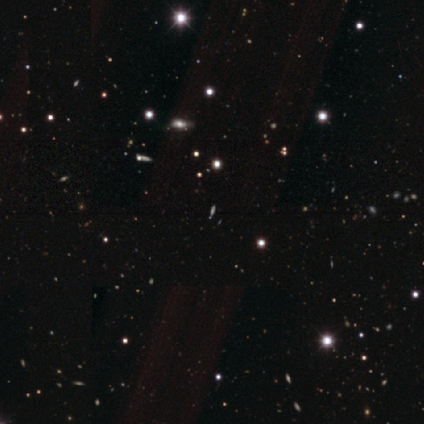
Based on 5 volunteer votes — smooth-or-featured: star or artifact: 80% | featured or disk: 20% | smooth: 0%